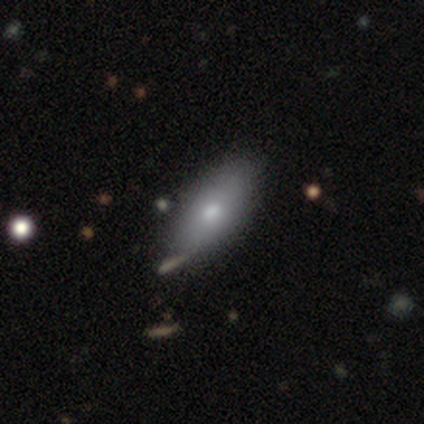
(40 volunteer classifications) Smooth or featured? 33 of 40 (82%) said smooth. How rounded? 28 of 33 (85%) said in between. Merging? 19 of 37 (51%) said none.